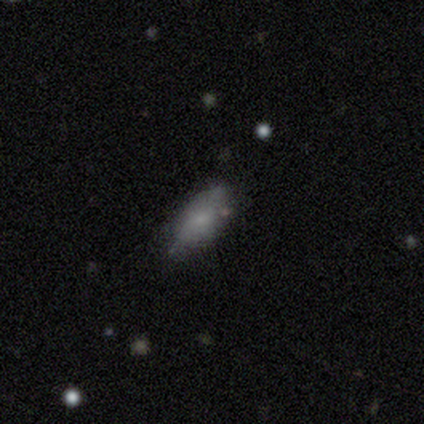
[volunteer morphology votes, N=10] Smooth or featured: smooth — 80% (featured or disk — 20%)
How rounded: in between — 88% (cigar-shaped — 12%)
Merging: minor disturbance — 60% (none — 40%)